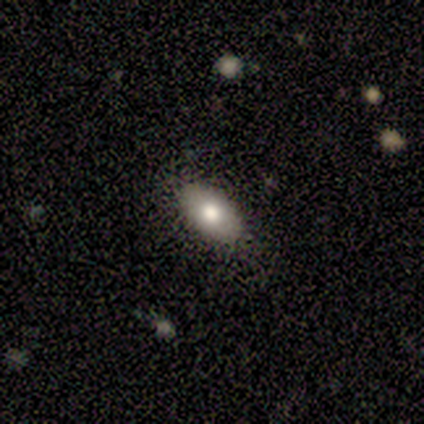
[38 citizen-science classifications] A smooth galaxy with no disk features (76%) that is in between round and cigar-shaped (97%).

Vote fractions:
- Smooth or featured? smooth: 76% / featured or disk: 18% / star or artifact: 5%
- How rounded? in between: 97% / cigar-shaped: 3% / round: 0%
- Merging? none: 89% / minor disturbance: 8% / major disturbance: 3% / merger: 0%